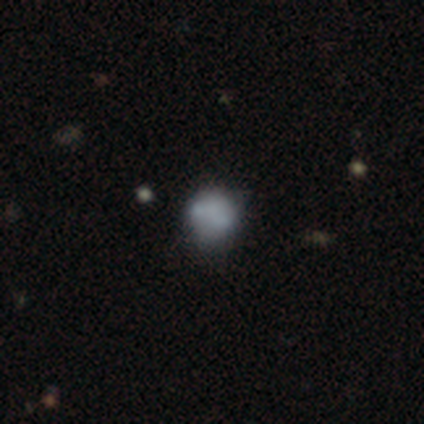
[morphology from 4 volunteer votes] A smooth galaxy with no disk features (100%) that is round (100%). Merging: none (50%).